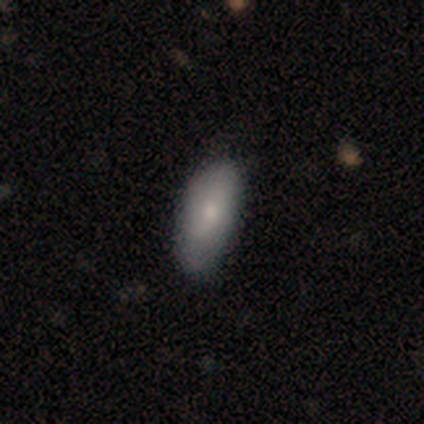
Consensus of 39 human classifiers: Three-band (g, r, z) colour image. It shows a smooth galaxy with no disk features (79%) that is in between round and cigar-shaped (87%). Merging: none (71%).